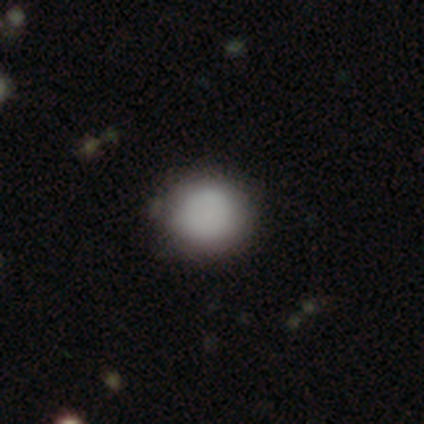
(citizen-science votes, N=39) smooth-or-featured: smooth: 92% | featured or disk: 8% | star or artifact: 0%
  how-rounded: round: 94% | in between: 6% | cigar-shaped: 0%
  merging: none: 72% | merger: 5% | major disturbance: 3% | minor disturbance: 0%